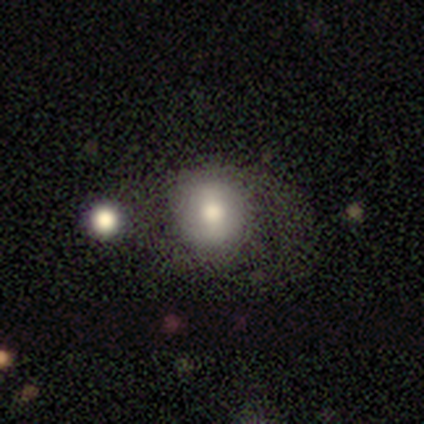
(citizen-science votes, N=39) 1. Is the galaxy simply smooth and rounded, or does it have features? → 74% smooth, 23% featured or disk, 3% star or artifact.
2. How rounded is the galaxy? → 83% round, 17% in between, 0% cigar-shaped.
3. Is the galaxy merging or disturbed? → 68% none, 21% major disturbance, 8% minor disturbance, 3% merger.